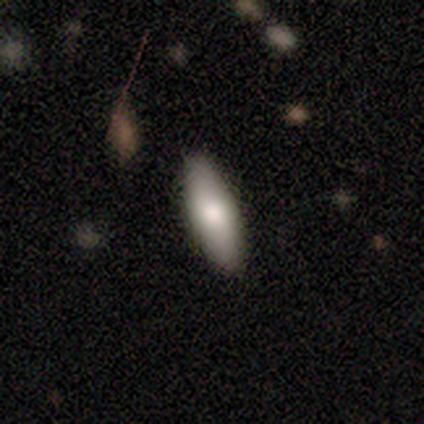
Q: Smooth or featured?
A: smooth (75%); runner-up: featured or disk (12%)
Q: How rounded?
A: in between (50%); tied with: cigar-shaped (50%)
Q: Merging?
A: none (100%)